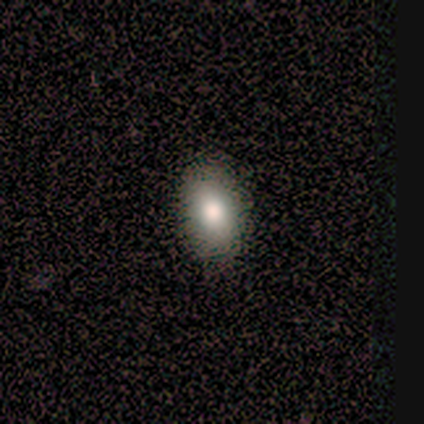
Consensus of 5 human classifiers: Smooth or featured?
  - smooth: 80% *
  - star or artifact: 20%
  - featured or disk: 0%
How rounded?
  - in between: 100% *
  - round: 0%
  - cigar-shaped: 0%
Merging?
  - none: 100% *
  - minor disturbance: 0%
  - major disturbance: 0%
  - merger: 0%